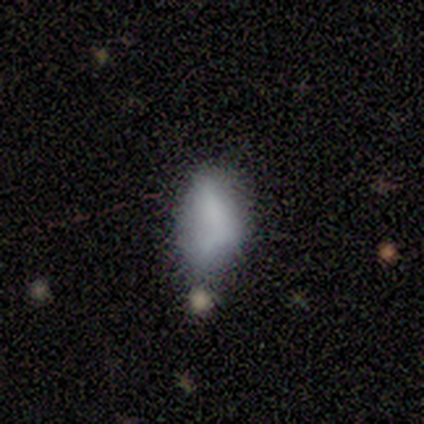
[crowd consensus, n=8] Smooth or featured?
  - smooth: 75% *
  - featured or disk: 25%
  - star or artifact: 0%
How rounded?
  - in between: 100% *
  - round: 0%
  - cigar-shaped: 0%
Merging?
  - none: 38% * (tied)
  - minor disturbance: 38% * (tied)
  - major disturbance: 25%
  - merger: 0%